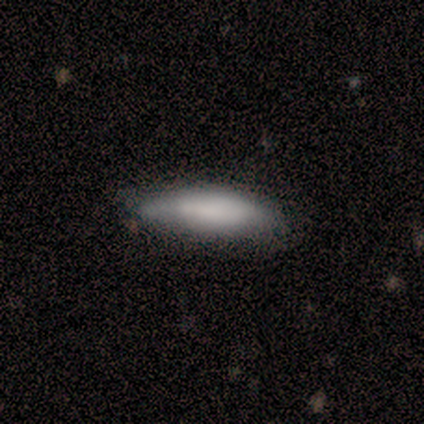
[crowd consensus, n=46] smooth 70%, featured or disk 28%, star or artifact 2%. Down the decision tree: how rounded — cigar-shaped (62%); merging — none (53%).